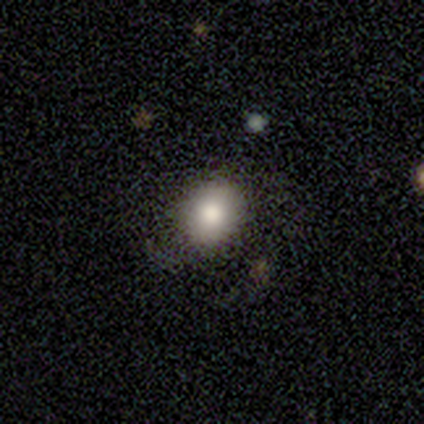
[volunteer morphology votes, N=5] Smooth or featured? 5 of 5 (100%) said smooth. How rounded? 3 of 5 (60%) said in between. Merging? 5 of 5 (100%) said none.